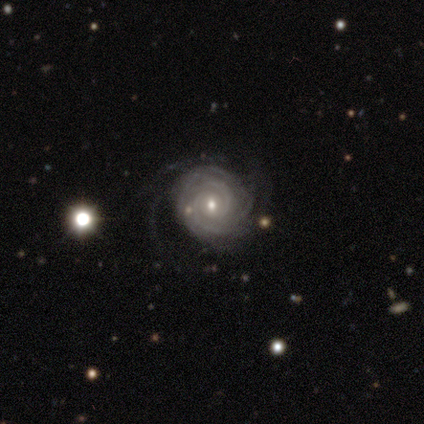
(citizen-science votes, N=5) featured or disk 80%, smooth 20%, star or artifact 0%. Down the decision tree: edge-on disk — no (100%); bar — weak (75%); spiral arms — yes (100%); spiral arm count — 2 (25%, tied with 3, 4 and can't tell); spiral winding — tight (50%); bulge size — small (50%); merging — none (80%).